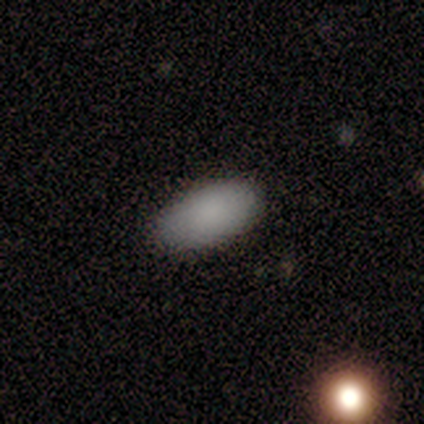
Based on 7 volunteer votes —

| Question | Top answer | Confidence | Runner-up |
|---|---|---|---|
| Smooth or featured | smooth | 100% | — |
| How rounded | in between | 86% | cigar-shaped (14%) |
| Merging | none | 86% | minor disturbance (14%) |